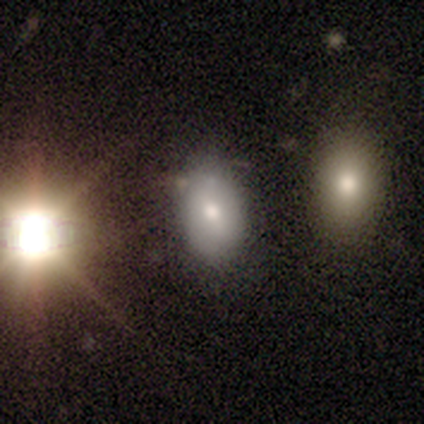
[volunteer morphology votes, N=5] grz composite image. It shows a smooth galaxy with no disk features (60%) that is round (67%). Merging: none (100%).